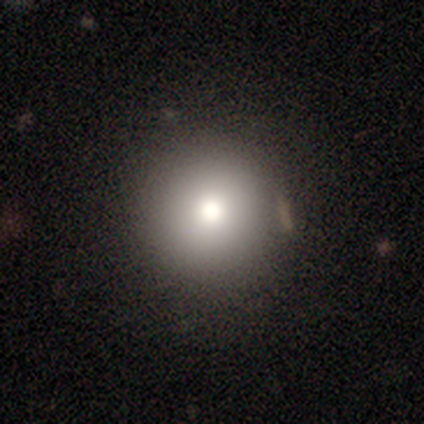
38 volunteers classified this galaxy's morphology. Smooth or featured?
  - smooth: 76% *
  - star or artifact: 18%
  - featured or disk: 5%
How rounded?
  - round: 90% *
  - in between: 7%
  - cigar-shaped: 3%
Merging?
  - none: 77% *
  - minor disturbance: 16%
  - merger: 6%
  - major disturbance: 0%